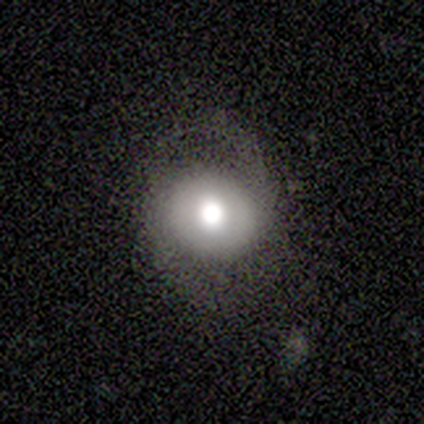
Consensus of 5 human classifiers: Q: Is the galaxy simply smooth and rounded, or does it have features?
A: featured or disk — 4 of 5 (80%).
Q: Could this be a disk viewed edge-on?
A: no — 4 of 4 (100%).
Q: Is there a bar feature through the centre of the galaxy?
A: no — 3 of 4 (75%).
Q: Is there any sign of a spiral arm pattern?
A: yes — 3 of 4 (75%).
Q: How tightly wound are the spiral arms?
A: medium — 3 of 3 (100%).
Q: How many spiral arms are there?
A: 2 — 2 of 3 (67%).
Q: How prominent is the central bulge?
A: large — 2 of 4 (50%, tied with moderate).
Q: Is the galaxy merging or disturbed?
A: none — 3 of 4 (75%).